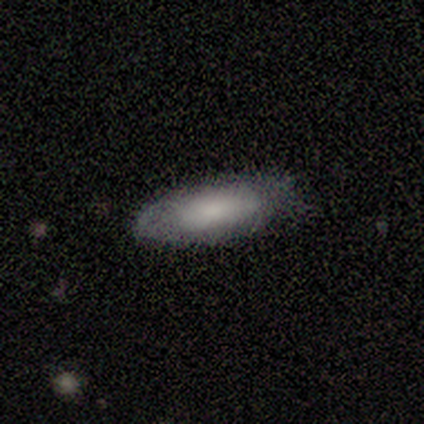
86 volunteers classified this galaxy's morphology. A smooth galaxy with no disk features (76%) that is in between round and cigar-shaped (72%). Merging: none (76%).